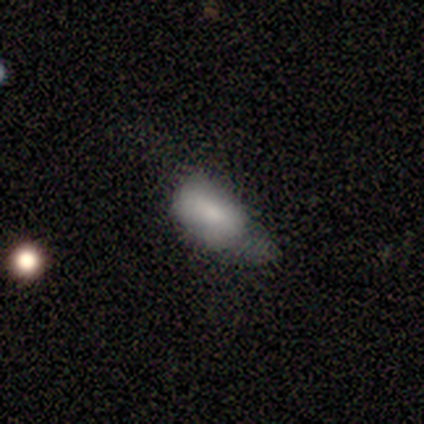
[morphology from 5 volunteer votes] This appears to be a smooth galaxy with no disk features (80%) that is in between round and cigar-shaped (100%). Merging: major disturbance (60%).